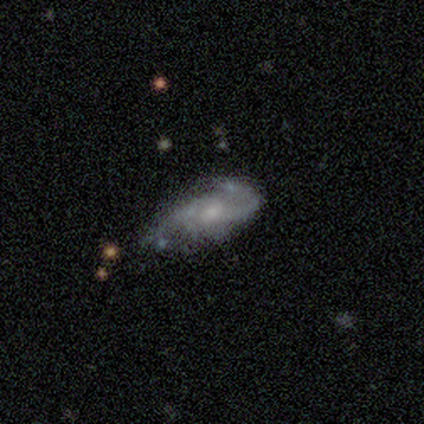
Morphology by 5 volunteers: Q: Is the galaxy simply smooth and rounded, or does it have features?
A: smooth — 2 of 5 (40%, tied with featured or disk).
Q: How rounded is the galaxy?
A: in between — 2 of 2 (100%).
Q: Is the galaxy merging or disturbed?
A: none — 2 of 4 (50%, tied with major disturbance).